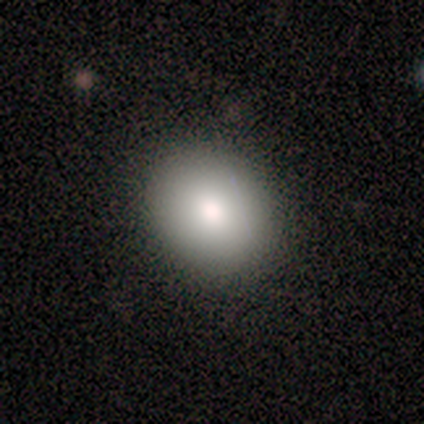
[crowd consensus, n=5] Smooth or featured: smooth — 100%
How rounded: in between — 60% (round — 40%)
Merging: none — 100%